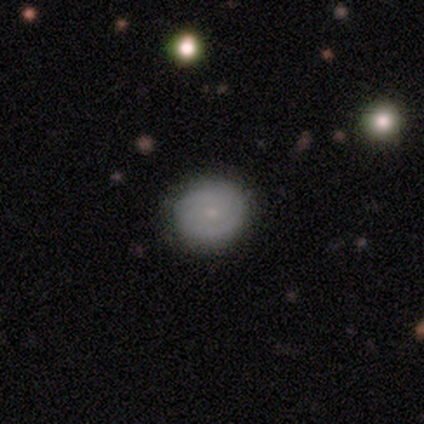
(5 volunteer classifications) This appears to be a smooth galaxy with no disk features (40%, tied with featured or disk) that is round (100%). Merging: none (50%, tied with minor disturbance).